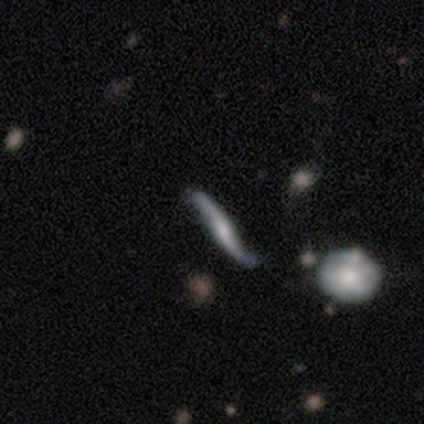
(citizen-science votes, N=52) Overall: featured or disk (75%). Edge-on disk: yes (54%; no 46%). Edge-on bulge: rounded (67%). Merging: none (59%; minor disturbance 24%).